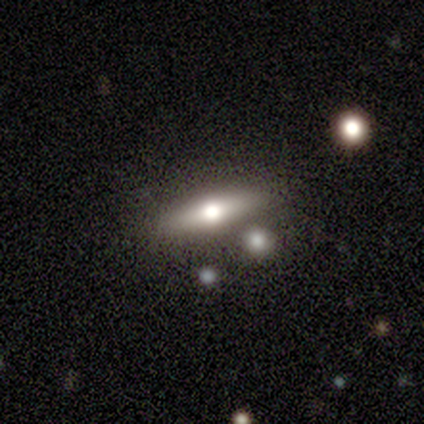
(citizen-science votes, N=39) Smooth or featured? featured or disk (54%)
Edge-on disk? yes (81%)
Edge-on bulge? rounded (94%)
Merging? none (87%)